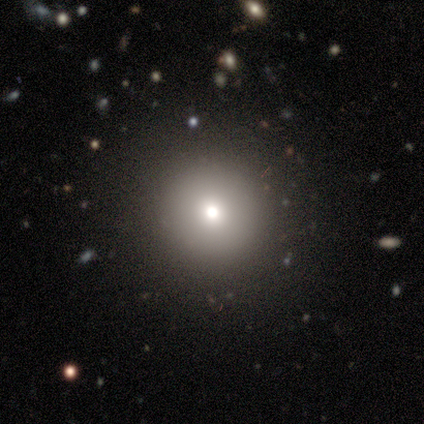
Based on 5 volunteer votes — smooth-or-featured: smooth: 60% | featured or disk: 20% | star or artifact: 20%
  how-rounded: round: 100% | in between: 0% | cigar-shaped: 0%
  merging: none: 100% | minor disturbance: 0% | major disturbance: 0% | merger: 0%